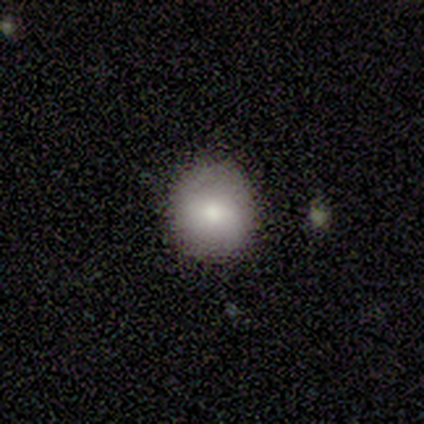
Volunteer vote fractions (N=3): smooth-or-featured: featured or disk: 100% | smooth: 0% | star or artifact: 0%
  disk-edge-on: no: 100% | yes: 0%
    bar: strong: 67% | no: 33% | weak: 0%
    has-spiral-arms: no: 67% | yes: 33%
    bulge-size: moderate: 67% | dominant: 33% | large: 0% | small: 0% | none: 0%
  merging: none: 100% | minor disturbance: 0% | major disturbance: 0% | merger: 0%